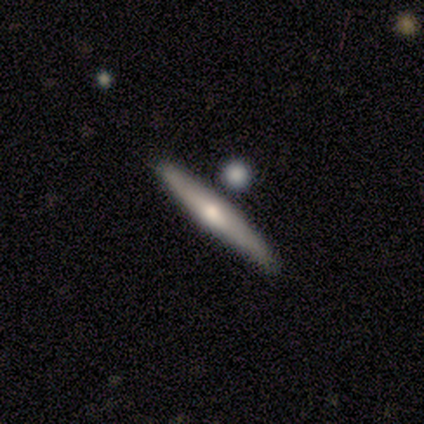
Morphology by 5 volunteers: Smooth or featured?
  - smooth: 80% *
  - featured or disk: 20%
  - star or artifact: 0%
How rounded?
  - cigar-shaped: 100% *
  - round: 0%
  - in between: 0%
Merging?
  - none: 80% *
  - minor disturbance: 20%
  - major disturbance: 0%
  - merger: 0%